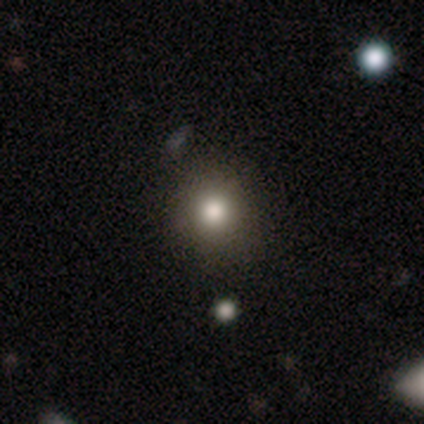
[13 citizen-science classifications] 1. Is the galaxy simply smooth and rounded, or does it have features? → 77% smooth, 23% star or artifact, 0% featured or disk.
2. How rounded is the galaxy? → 80% round, 20% in between, 0% cigar-shaped.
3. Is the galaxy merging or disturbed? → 80% none, 10% minor disturbance, 10% major disturbance, 0% merger.